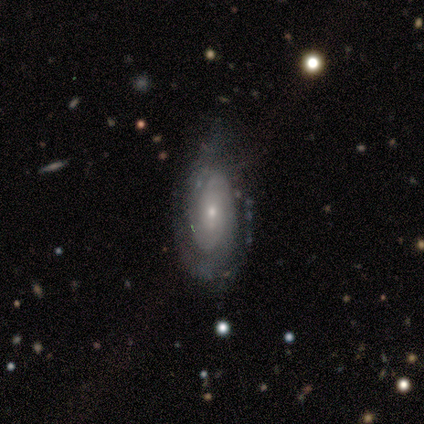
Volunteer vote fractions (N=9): This appears to be a featured or disk galaxy (100%) with no bar (88%), 2 (60%) tight (40%, tied with loose) spiral arms (62%) and a small central bulge (100%). Merging: none (56%).